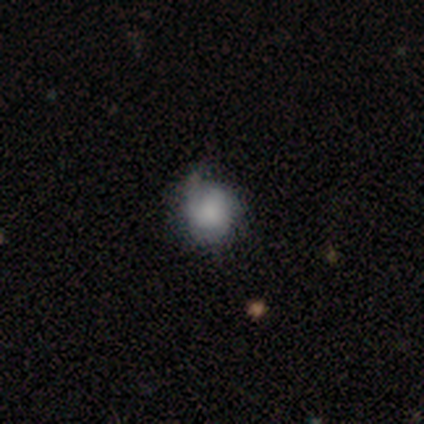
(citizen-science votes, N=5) Q: Smooth or featured?
A: smooth (100%)
Q: How rounded?
A: round (80%); runner-up: in between (20%)
Q: Merging?
A: none (100%)